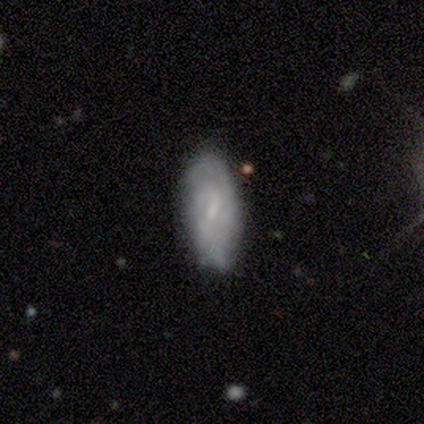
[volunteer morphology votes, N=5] smooth_or_featured: smooth (p=0.40) [tied with: featured or disk p=0.40]
how_rounded: in between (p=1.00)
merging: none (p=0.75) [alt: minor disturbance p=0.25]